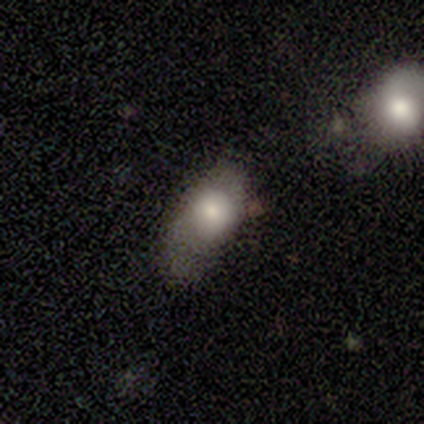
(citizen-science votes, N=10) Q: Smooth or featured?
A: smooth (80%); runner-up: featured or disk (20%)
Q: How rounded?
A: in between (88%); runner-up: round (12%)
Q: Merging?
A: none (60%); runner-up: minor disturbance (20%)